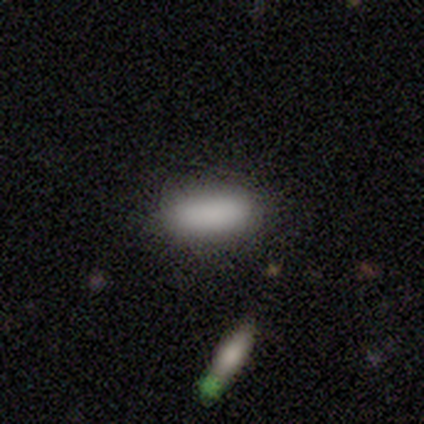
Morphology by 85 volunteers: A smooth galaxy with no disk features (92%) that is in between round and cigar-shaped (76%).

Vote fractions:
- Smooth or featured? smooth: 92% / featured or disk: 6% / star or artifact: 2%
- How rounded? in between: 76% / cigar-shaped: 24% / round: 0%
- Merging? none: 82% / minor disturbance: 12% / major disturbance: 4% / merger: 2%